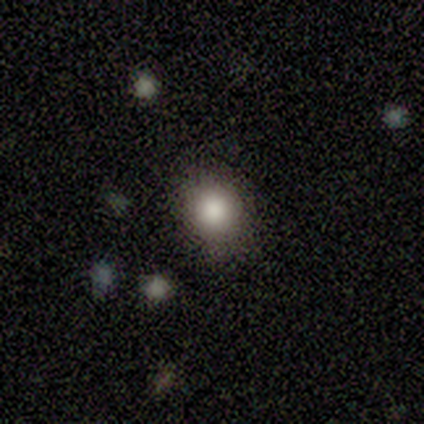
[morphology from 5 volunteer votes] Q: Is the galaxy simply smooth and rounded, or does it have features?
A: smooth — 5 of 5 (100%).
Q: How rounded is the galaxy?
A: round — 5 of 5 (100%).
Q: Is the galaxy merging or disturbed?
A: none — 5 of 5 (100%).